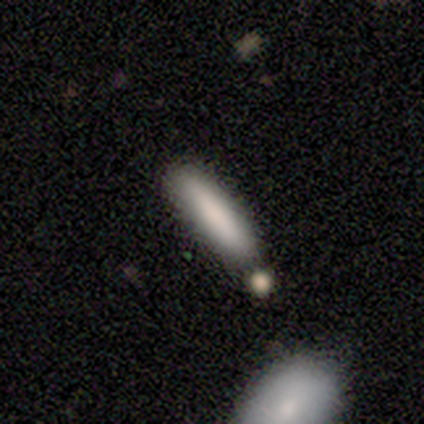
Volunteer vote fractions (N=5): A smooth galaxy with no disk features (100%) that is cigar-shaped (100%). Merging: none (60%).